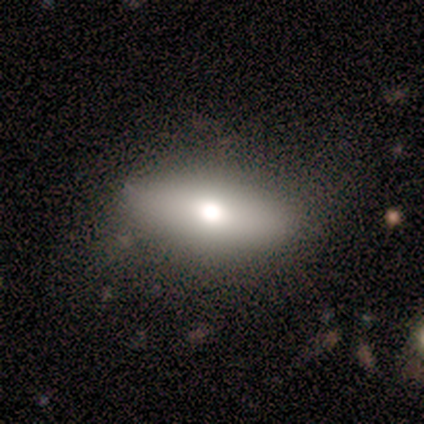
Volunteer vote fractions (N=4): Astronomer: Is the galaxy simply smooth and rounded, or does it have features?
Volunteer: smooth — 50%, tied with featured or disk at 50%.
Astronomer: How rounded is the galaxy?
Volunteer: in between — 100%.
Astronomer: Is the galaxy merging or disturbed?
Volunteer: none — 75%.